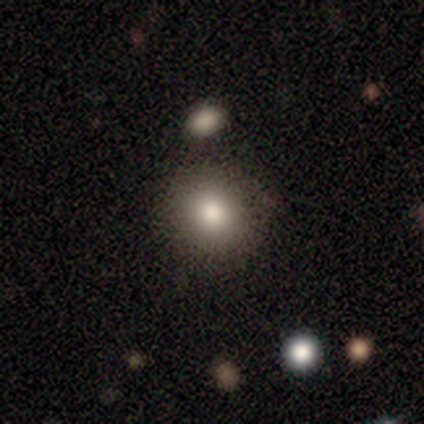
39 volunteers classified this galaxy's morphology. Smooth or featured: smooth — 72% (star or artifact — 15%)
How rounded: round — 82% (in between — 14%)
Merging: none — 70% (minor disturbance — 15%)